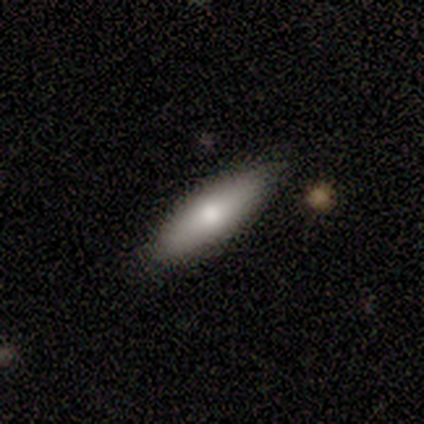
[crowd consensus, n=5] A smooth galaxy with no disk features (80%) that is in between round and cigar-shaped (100%).

Vote fractions:
- Smooth or featured? smooth: 80% / featured or disk: 20% / star or artifact: 0%
- How rounded? in between: 100% / round: 0% / cigar-shaped: 0%
- Merging? none: 60% / minor disturbance: 40% / major disturbance: 0% / merger: 0%